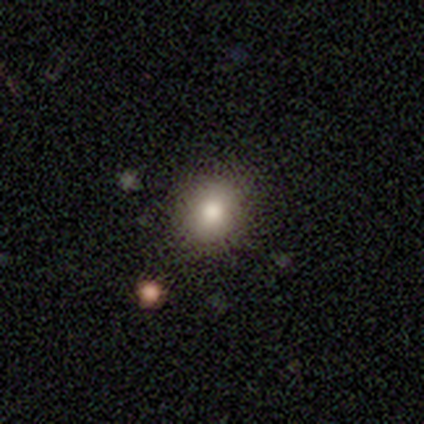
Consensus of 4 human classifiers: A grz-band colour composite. It shows a smooth galaxy with no disk features (75%) that is round (67%). Merging: none (100%).